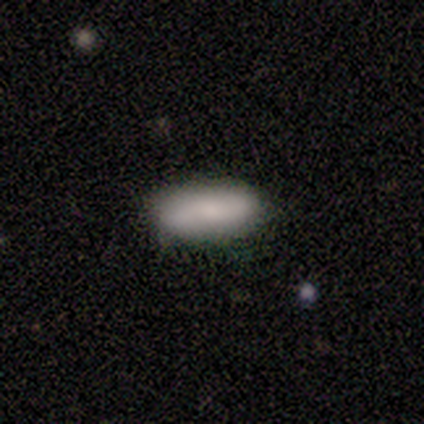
smooth_or_featured: smooth (p=0.50) [tied with: featured or disk p=0.50]
how_rounded: in between (p=0.50) [tied with: cigar-shaped p=0.50]
merging: none (p=1.00)